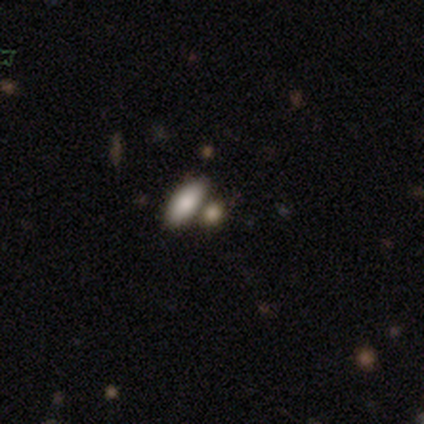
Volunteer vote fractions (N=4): smooth 75%, star or artifact 25%, featured or disk 0%. Down the decision tree: how rounded — in between (67%); merging — none (67%).